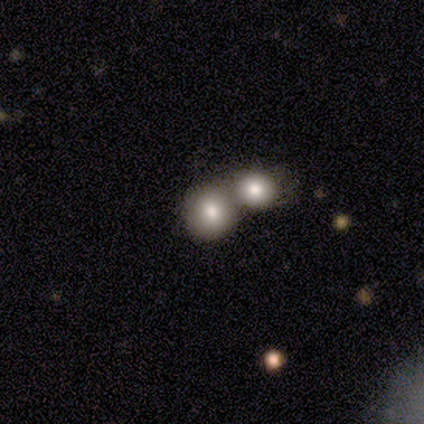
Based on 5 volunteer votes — smooth 60%, featured or disk 20%, star or artifact 20%. Down the decision tree: how rounded — round (100%); merging — none (50%, tied with merger).